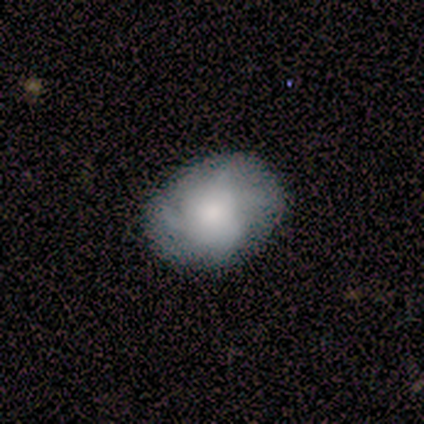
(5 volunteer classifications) Smooth or featured?
  - smooth: 40% * (tied)
  - featured or disk: 40% * (tied)
  - star or artifact: 20%
How rounded?
  - in between: 100% *
  - round: 0%
  - cigar-shaped: 0%
Merging?
  - none: 75% *
  - minor disturbance: 25%
  - major disturbance: 0%
  - merger: 0%